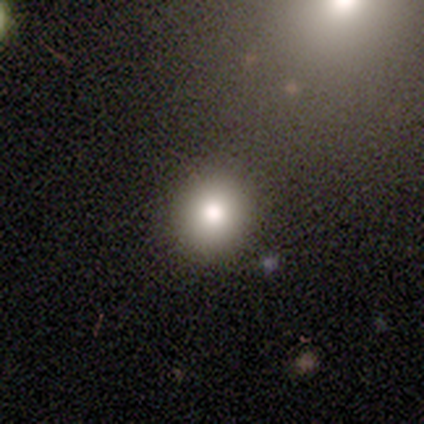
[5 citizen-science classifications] smooth-or-featured: smooth: 60% | featured or disk: 40% | star or artifact: 0%
  how-rounded: round: 67% | in between: 33% | cigar-shaped: 0%
  merging: none: 100% | minor disturbance: 0% | major disturbance: 0% | merger: 0%